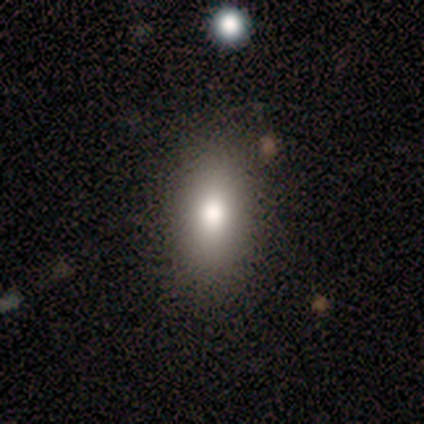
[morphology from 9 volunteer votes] smooth-or-featured: smooth: 78% | featured or disk: 11% | star or artifact: 11%
  how-rounded: in between: 100% | round: 0% | cigar-shaped: 0%
  merging: none: 100% | minor disturbance: 0% | major disturbance: 0% | merger: 0%